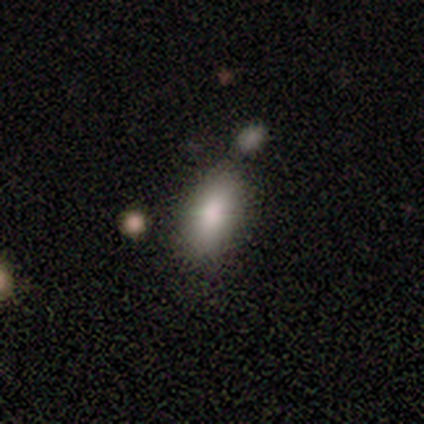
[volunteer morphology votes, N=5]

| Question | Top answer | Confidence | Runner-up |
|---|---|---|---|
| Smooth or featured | smooth | 80% | featured or disk (20%) |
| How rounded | in between | 100% | — |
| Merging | none | 60% | minor disturbance (40%) |